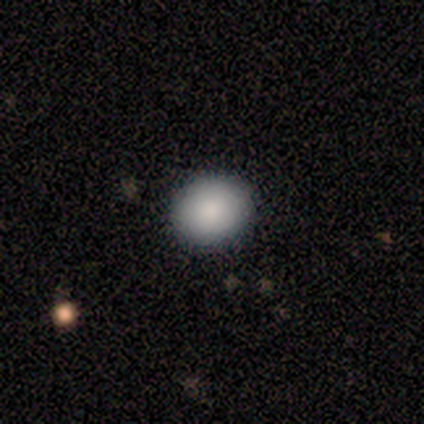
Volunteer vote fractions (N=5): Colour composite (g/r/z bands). It shows a smooth galaxy with no disk features (100%) that is round (60%). Merging: none (100%).